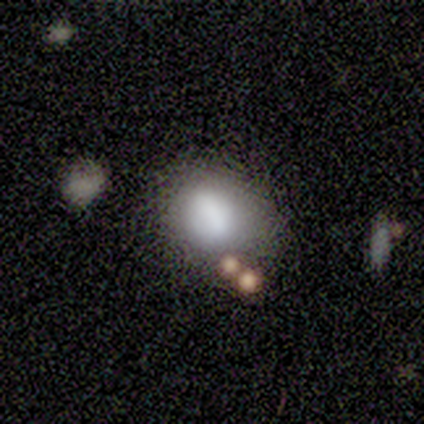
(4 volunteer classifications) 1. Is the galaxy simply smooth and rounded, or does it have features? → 75% smooth, 25% star or artifact, 0% featured or disk.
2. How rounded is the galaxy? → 67% in between, 33% round, 0% cigar-shaped.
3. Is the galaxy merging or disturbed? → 33% none (tied), 33% minor disturbance (tied), 33% major disturbance (tied), 0% merger.